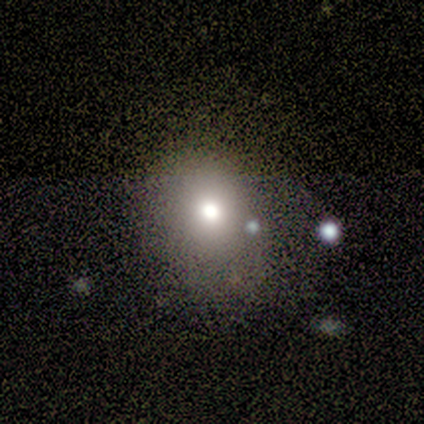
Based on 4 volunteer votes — This appears to be a smooth galaxy with no disk features (75%) that is in between round and cigar-shaped (67%). Merging: none (75%).